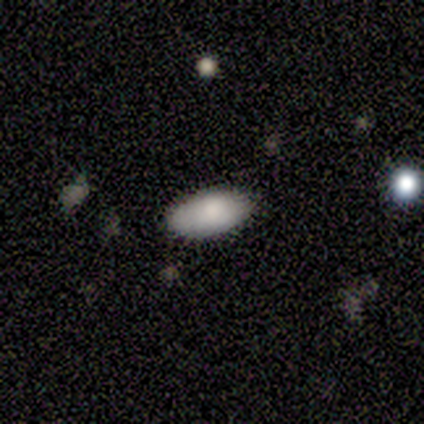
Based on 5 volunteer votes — Volunteers were most divided on "smooth or featured": smooth: 60%, star or artifact: 40%, featured or disk: 0%. More confident: how rounded — in between (100%); merging — none (67%).